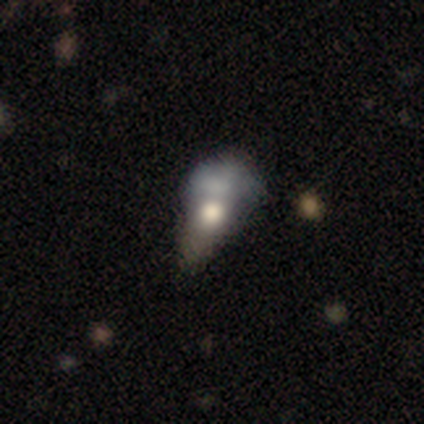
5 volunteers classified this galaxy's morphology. type=featured or disk (100%); edge-on=no (80%); bar=no (100%); spiral arms=no (100%); bulge=moderate (50%); merging=merger (60%).